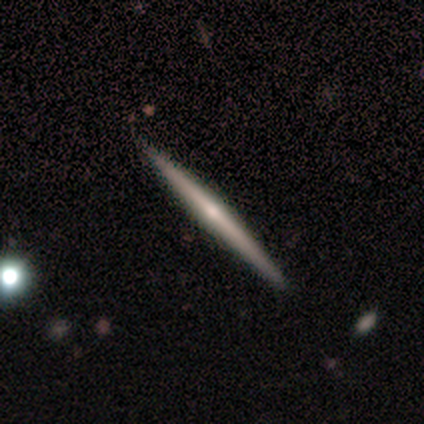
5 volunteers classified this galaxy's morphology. This appears to be a smooth galaxy with no disk features (40%, tied with featured or disk) that is in between round and cigar-shaped (50%, tied with cigar-shaped). Merging: none (75%).